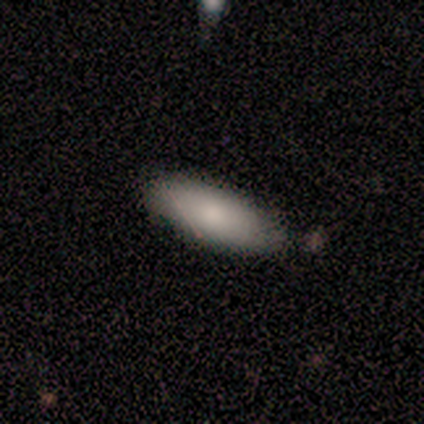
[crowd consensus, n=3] smooth-or-featured: smooth: 100% | featured or disk: 0% | star or artifact: 0%
  how-rounded: in between: 67% | cigar-shaped: 33% | round: 0%
  merging: merger: 67% | minor disturbance: 33% | none: 0% | major disturbance: 0%